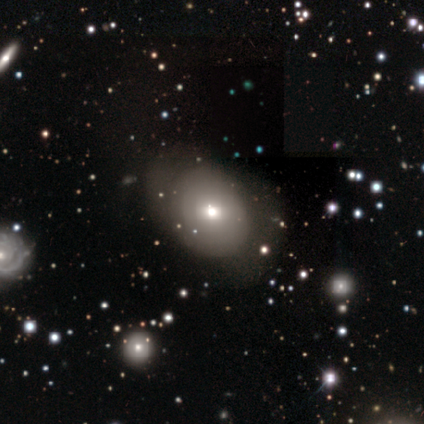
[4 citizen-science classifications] smooth 50% (tied), featured or disk 50% (tied), star or artifact 0%. Down the decision tree: how rounded — round (50%, tied with in between); merging — none (50%).